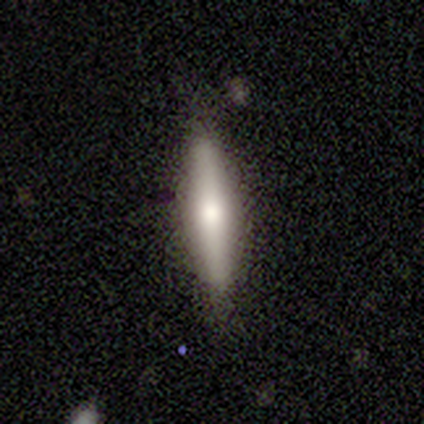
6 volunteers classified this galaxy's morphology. This appears to be a featured or disk galaxy (50%) viewed edge-on (100%) with a boxy central bulge (33%, tied with none and rounded). Merging: none (100%).